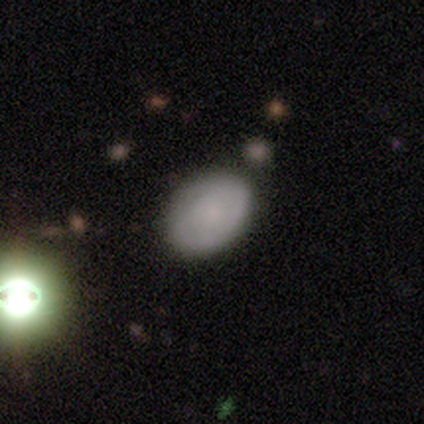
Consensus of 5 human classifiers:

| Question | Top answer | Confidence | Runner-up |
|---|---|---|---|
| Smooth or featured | smooth | 40% | tied: featured or disk (40%) |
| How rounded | round | 50% | tied: in between (50%) |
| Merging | none | 50% | minor disturbance (25%) |